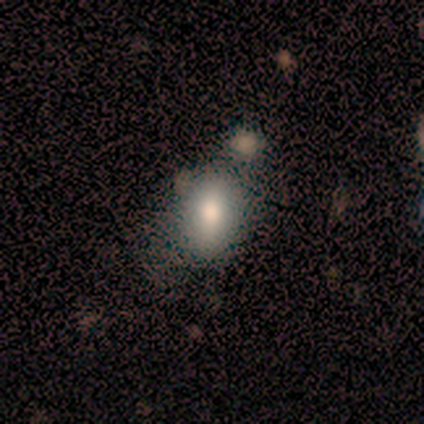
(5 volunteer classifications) A smooth galaxy with no disk features (80%) that is in between round and cigar-shaped (100%).

Vote fractions:
- Smooth or featured? smooth: 80% / featured or disk: 20% / star or artifact: 0%
- How rounded? in between: 100% / round: 0% / cigar-shaped: 0%
- Merging? none: 60% / minor disturbance: 20% / major disturbance: 20% / merger: 0%